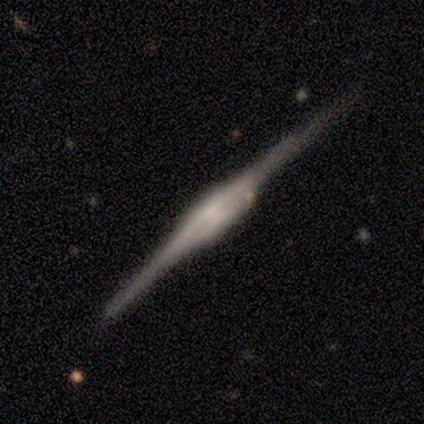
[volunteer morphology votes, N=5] Smooth or featured? 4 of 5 (80%) said featured or disk. Edge-on disk? 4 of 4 (100%) said yes. Edge-on bulge? 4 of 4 (100%) said boxy. Merging? 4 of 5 (80%) said none.